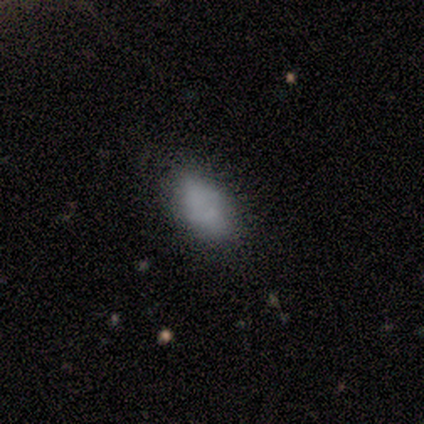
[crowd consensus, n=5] smooth_or_featured: smooth (p=0.80) [alt: star or artifact p=0.20]
how_rounded: in between (p=1.00)
merging: none (p=0.75) [alt: minor disturbance p=0.25]